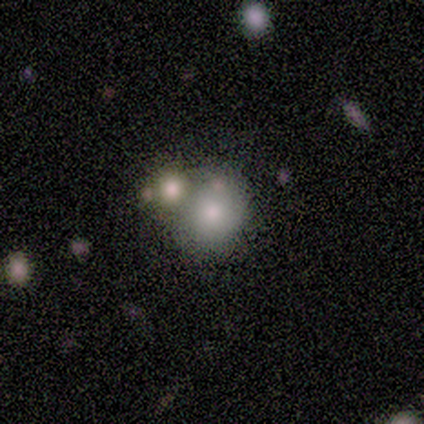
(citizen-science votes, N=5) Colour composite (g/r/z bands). It shows a smooth galaxy with no disk features (80%) that is round (75%). Merging: none (50%).